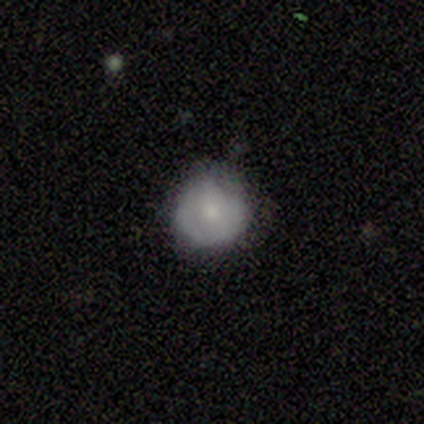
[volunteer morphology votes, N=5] A smooth galaxy with no disk features (100%) that is round (100%).

Vote fractions:
- Smooth or featured? smooth: 100% / featured or disk: 0% / star or artifact: 0%
- How rounded? round: 100% / in between: 0% / cigar-shaped: 0%
- Merging? none: 60% / minor disturbance: 40% / major disturbance: 0% / merger: 0%